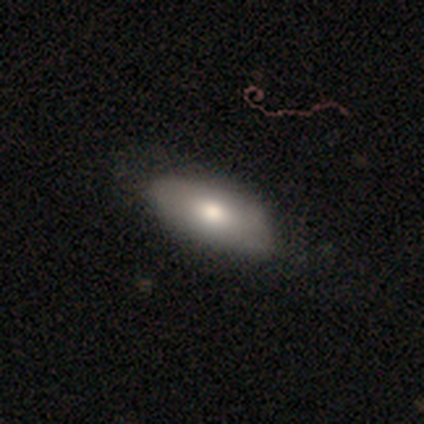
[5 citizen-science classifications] Morphology: type=smooth (80%); roundness=in between (100%); merging=none (100%).